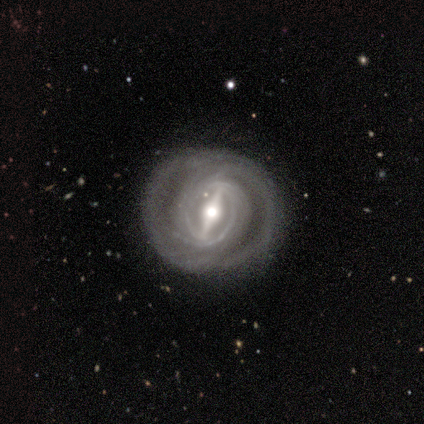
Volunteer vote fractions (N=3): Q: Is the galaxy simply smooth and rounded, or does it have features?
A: featured or disk — 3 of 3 (100%).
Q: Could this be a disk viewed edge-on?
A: no — 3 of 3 (100%).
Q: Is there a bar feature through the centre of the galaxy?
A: strong — 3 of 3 (100%).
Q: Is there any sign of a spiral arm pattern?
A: yes — 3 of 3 (100%).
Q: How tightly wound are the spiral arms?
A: tight — 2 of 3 (67%).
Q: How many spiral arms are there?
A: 2 — 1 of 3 (33%, tied with 4 and can't tell).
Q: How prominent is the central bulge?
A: moderate — 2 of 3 (67%).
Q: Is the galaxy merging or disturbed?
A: none — 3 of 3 (100%).